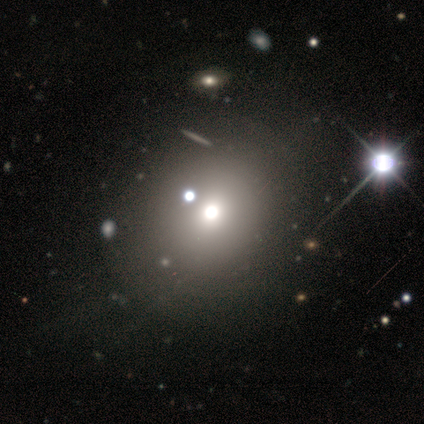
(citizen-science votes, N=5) A smooth galaxy with no disk features (80%) that is round (50%, tied with in between).

Vote fractions:
- Smooth or featured? smooth: 80% / featured or disk: 20% / star or artifact: 0%
- How rounded? round: 50% (tied) / in between: 50% (tied) / cigar-shaped: 0%
- Merging? none: 100% / minor disturbance: 0% / major disturbance: 0% / merger: 0%